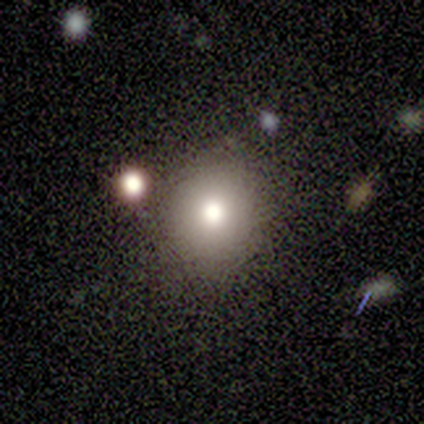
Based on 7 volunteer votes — Smooth or featured? smooth (100%)
How rounded? round (71%)
Merging? none (86%)